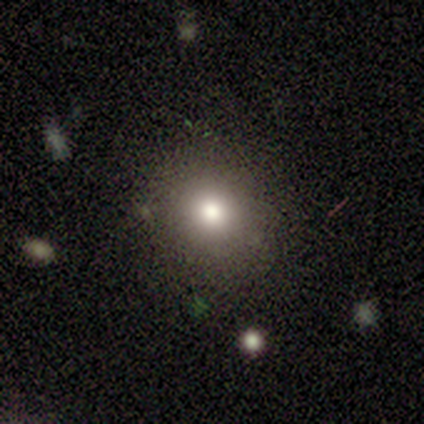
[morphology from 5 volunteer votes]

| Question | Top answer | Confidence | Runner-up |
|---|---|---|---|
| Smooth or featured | smooth | 80% | star or artifact (20%) |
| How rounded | round | 50% | tied: in between (50%) |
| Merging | none | 75% | minor disturbance (25%) |